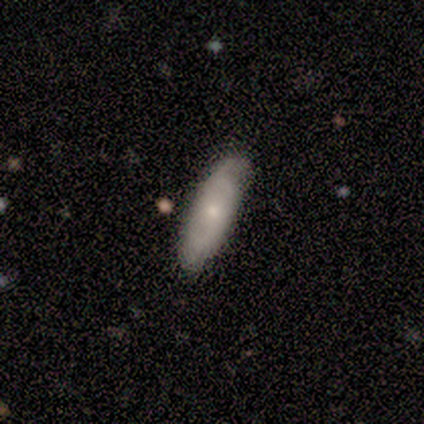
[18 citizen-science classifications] This is likely a smooth galaxy (61%). How rounded: possibly in between (55%). Merging: clearly none (89%).